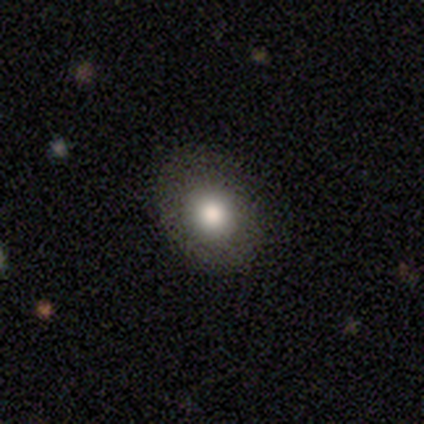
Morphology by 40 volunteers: smooth_or_featured: smooth (p=0.72) [alt: featured or disk p=0.20]
how_rounded: round (p=0.69) [alt: in between p=0.31]
merging: none (p=0.86) [alt: minor disturbance p=0.08]